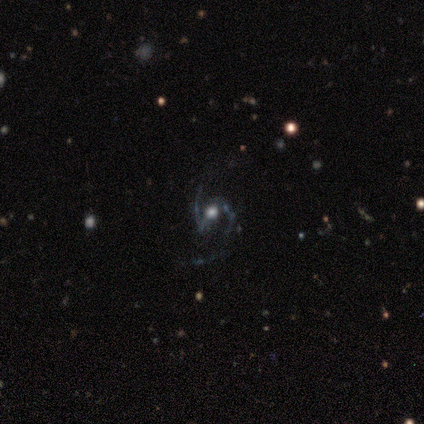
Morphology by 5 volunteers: smooth_or_featured: featured or disk (p=0.80) [alt: star or artifact p=0.20]
disk_edge_on: no (p=1.00)
bar: strong (p=0.50) [alt: weak p=0.25]
has_spiral_arms: yes (p=1.00)
spiral_winding: medium (p=0.75) [alt: tight p=0.25]
spiral_arm_count: 2 (p=1.00)
bulge_size: large (p=0.50) [alt: moderate p=0.25]
merging: none (p=0.75) [alt: minor disturbance p=0.25]